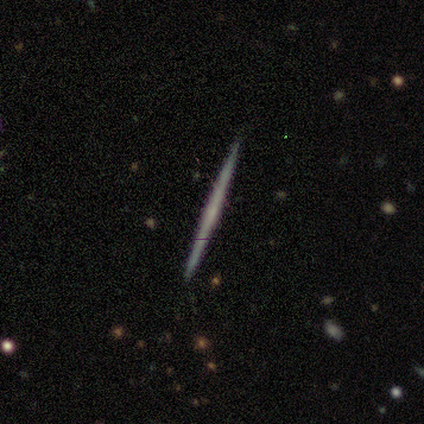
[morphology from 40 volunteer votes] smooth_or_featured: featured or disk (p=0.65) [alt: smooth p=0.30]
disk_edge_on: yes (p=1.00)
edge_on_bulge: none (p=0.81) [alt: rounded p=0.19]
merging: none (p=0.97) [alt: minor disturbance p=0.03]